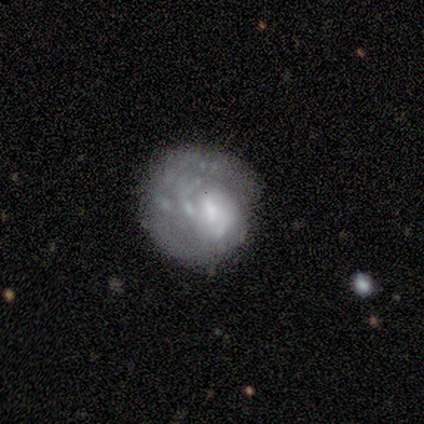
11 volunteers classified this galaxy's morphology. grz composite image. It shows a featured or disk galaxy (82%) with no bar (78%), 1 (50%, tied with can't tell) tight (100%) spiral arms (67%) and a moderate central bulge (44%). Merging: none (36%).